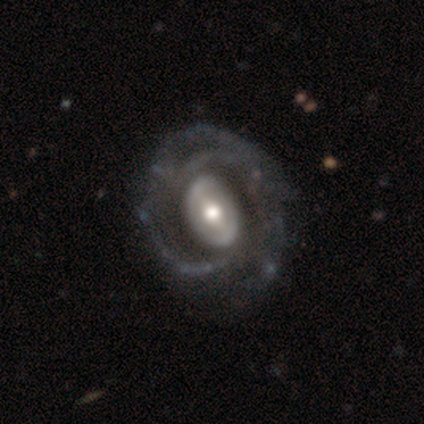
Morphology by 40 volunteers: Smooth or featured? 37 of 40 (92%) said featured or disk. Edge-on disk? 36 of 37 (97%) said no. Bar? 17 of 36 (47%) said weak. Spiral arms? 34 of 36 (94%) said yes. Spiral winding? 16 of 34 (47%) said medium. Spiral arm count? 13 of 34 (38%) said 3. Bulge size? 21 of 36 (58%) said moderate. Merging? 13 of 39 (33%) said none.